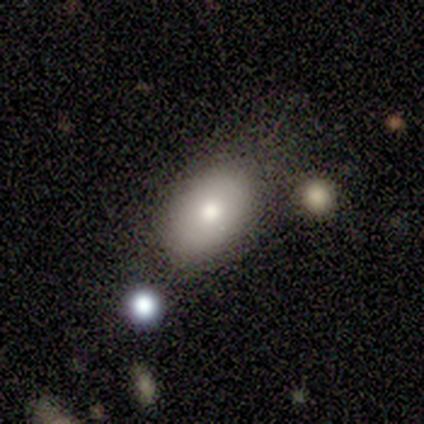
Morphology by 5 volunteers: A smooth galaxy with no disk features (60%) that is in between round and cigar-shaped (100%). Merging: none (60%).